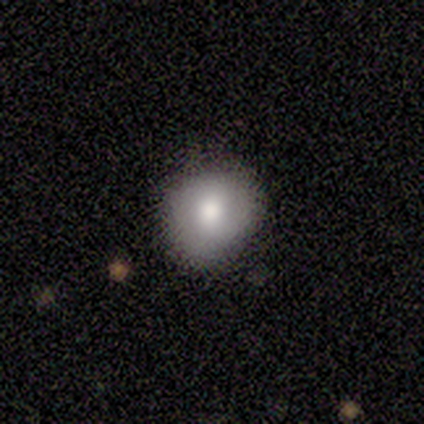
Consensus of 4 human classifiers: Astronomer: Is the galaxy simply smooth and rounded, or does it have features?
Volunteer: smooth — 75%.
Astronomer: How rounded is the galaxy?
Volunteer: round — 67%.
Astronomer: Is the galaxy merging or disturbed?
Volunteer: none — 67%.